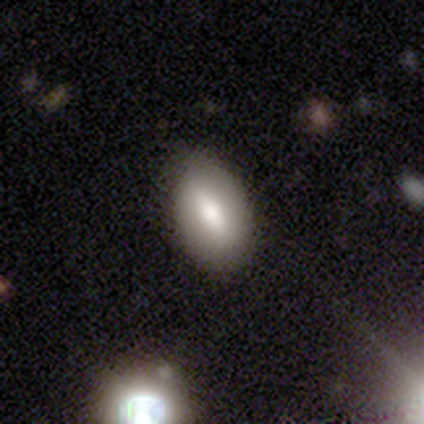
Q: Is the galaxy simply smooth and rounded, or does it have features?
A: featured or disk — 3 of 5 (60%).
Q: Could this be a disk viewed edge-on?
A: no — 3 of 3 (100%).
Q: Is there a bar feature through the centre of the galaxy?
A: strong — 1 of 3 (33%, tied with weak and no).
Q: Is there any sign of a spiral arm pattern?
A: no — 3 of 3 (100%).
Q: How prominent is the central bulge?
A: moderate — 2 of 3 (67%).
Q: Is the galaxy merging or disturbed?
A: none — 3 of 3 (100%).